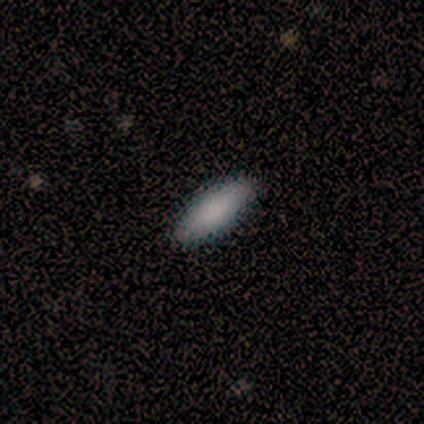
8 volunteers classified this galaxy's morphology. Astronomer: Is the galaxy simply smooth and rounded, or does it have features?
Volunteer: smooth — 100%.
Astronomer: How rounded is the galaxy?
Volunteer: in between — 88%.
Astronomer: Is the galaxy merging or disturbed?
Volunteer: none — 88%.